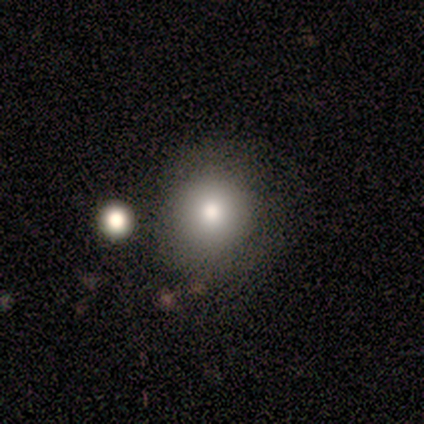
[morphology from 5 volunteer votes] Smooth or featured?
  - smooth: 100% *
  - featured or disk: 0%
  - star or artifact: 0%
How rounded?
  - round: 80% *
  - in between: 20%
  - cigar-shaped: 0%
Merging?
  - none: 40% * (tied)
  - minor disturbance: 40% * (tied)
  - major disturbance: 20%
  - merger: 0%